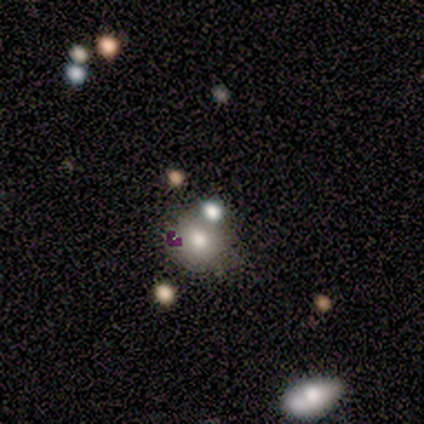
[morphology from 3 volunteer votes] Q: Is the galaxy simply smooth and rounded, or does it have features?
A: smooth — 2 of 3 (67%).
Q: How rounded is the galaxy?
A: round — 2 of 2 (100%).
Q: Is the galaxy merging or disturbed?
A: none — 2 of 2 (100%).